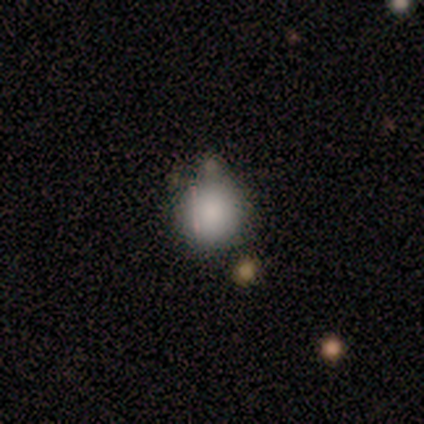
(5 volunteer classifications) Smooth or featured: smooth — 100%
How rounded: round — 100%
Merging: none — 60% (minor disturbance — 40%)